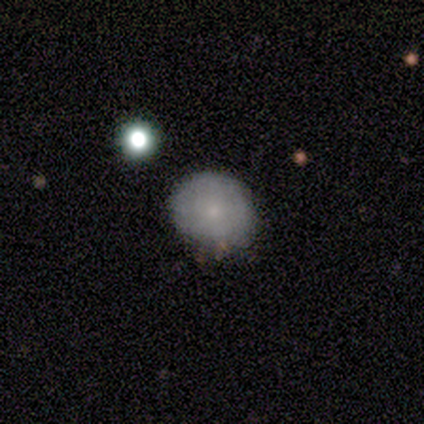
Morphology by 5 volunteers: Overall: smooth (100%). How rounded: round (80%). Merging: none (80%).